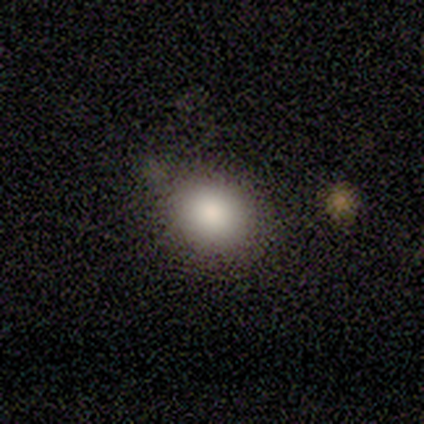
A smooth galaxy with no disk features (100%) that is round (80%). Merging: none (60%).